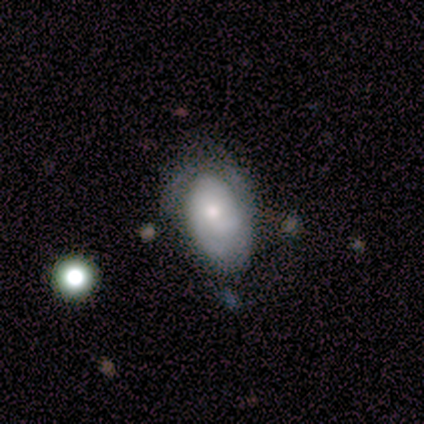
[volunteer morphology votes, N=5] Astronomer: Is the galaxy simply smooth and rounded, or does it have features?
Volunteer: featured or disk — 60% (runner-up: smooth, 40%).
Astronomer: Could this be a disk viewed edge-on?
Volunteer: no — 100%.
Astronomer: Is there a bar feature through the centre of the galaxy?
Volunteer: no — 67%.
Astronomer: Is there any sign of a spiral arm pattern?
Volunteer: yes — 100%.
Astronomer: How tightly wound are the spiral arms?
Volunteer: tight — 67%.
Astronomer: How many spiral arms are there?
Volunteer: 2 — 67%.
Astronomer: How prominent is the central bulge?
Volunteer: small — 67%.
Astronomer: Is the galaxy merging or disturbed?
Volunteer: none — 60% (runner-up: minor disturbance, 40%).